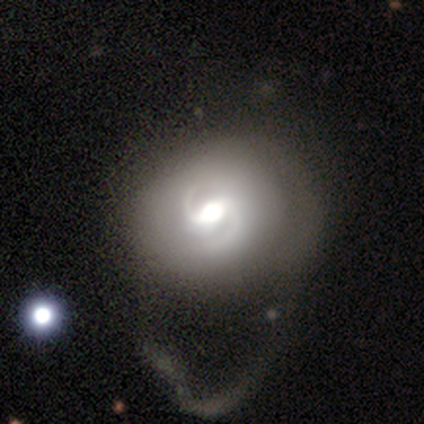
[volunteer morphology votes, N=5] Smooth or featured?
  - featured or disk: 80% *
  - smooth: 20%
  - star or artifact: 0%
Edge-on disk?
  - no: 100% *
  - yes: 0%
Bar?
  - weak: 50% *
  - strong: 25%
  - no: 25%
Spiral arms?
  - yes: 75% *
  - no: 25%
Spiral winding?
  - tight: 33% * (tied)
  - medium: 33% * (tied)
  - loose: 33% * (tied)
Spiral arm count?
  - 2: 100% *
  - 1: 0%
  - 3: 0%
  - 4: 0%
  - more than 4: 0%
  - can't tell: 0%
Bulge size?
  - large: 50% *
  - moderate: 25%
  - small: 25%
  - dominant: 0%
  - none: 0%
Merging?
  - major disturbance: 100% *
  - none: 0%
  - minor disturbance: 0%
  - merger: 0%